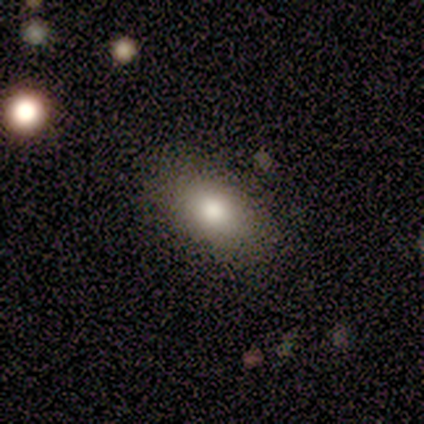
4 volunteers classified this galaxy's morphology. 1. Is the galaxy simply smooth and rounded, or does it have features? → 75% smooth, 25% featured or disk, 0% star or artifact.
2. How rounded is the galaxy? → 100% in between, 0% round, 0% cigar-shaped.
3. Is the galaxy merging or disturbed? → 100% none, 0% minor disturbance, 0% major disturbance, 0% merger.